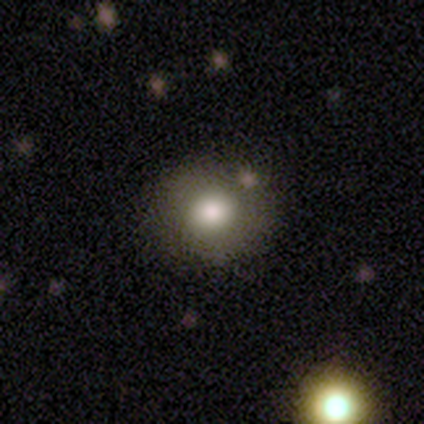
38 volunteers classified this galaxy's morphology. A smooth galaxy with no disk features (76%) that is round (79%). Merging: none (91%).